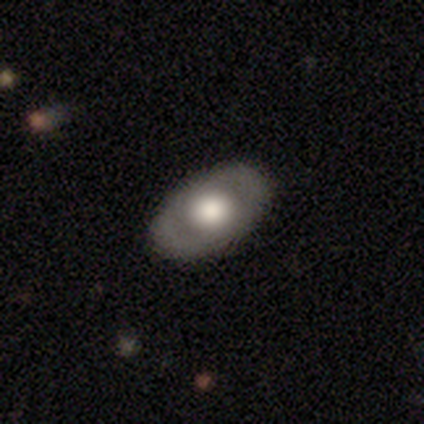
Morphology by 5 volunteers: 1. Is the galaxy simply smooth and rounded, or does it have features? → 60% featured or disk, 40% smooth, 0% star or artifact.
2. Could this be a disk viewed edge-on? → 67% no, 33% yes.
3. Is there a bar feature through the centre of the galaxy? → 50% weak (tied), 50% no (tied), 0% strong.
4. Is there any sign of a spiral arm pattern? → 50% yes (tied), 50% no (tied).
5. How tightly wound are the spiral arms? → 100% tight, 0% medium, 0% loose.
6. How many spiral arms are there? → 100% 2, 0% 1, 0% 3, 0% 4, 0% more than 4, 0% can't tell.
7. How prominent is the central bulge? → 50% large (tied), 50% moderate (tied), 0% dominant, 0% small, 0% none.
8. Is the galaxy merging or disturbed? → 80% none, 20% minor disturbance, 0% major disturbance, 0% merger.